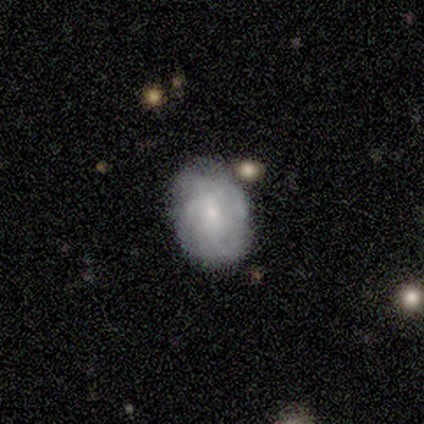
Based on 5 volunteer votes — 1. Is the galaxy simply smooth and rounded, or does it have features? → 80% featured or disk, 20% smooth, 0% star or artifact.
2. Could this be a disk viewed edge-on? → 100% no, 0% yes.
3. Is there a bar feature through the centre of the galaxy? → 100% no, 0% strong, 0% weak.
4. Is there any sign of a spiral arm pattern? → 100% yes, 0% no.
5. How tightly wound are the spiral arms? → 100% tight, 0% medium, 0% loose.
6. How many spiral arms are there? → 50% can't tell, 25% 3, 25% more than 4, 0% 1, 0% 2, 0% 4.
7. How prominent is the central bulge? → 75% small, 25% moderate, 0% dominant, 0% large, 0% none.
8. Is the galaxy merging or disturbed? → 60% none, 20% minor disturbance, 20% merger, 0% major disturbance.